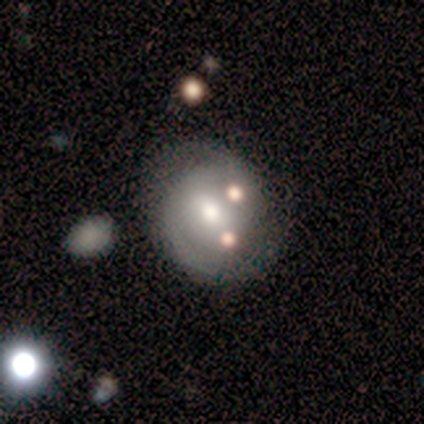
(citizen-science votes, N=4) smooth_or_featured: featured or disk (p=1.00)
disk_edge_on: no (p=1.00)
bar: weak (p=1.00)
has_spiral_arms: yes (p=0.75) [alt: no p=0.25]
spiral_winding: tight (p=1.00)
spiral_arm_count: 2 (p=0.67) [alt: can't tell p=0.33]
bulge_size: moderate (p=0.75) [alt: large p=0.25]
merging: none (p=0.50) [tied with: minor disturbance p=0.50]